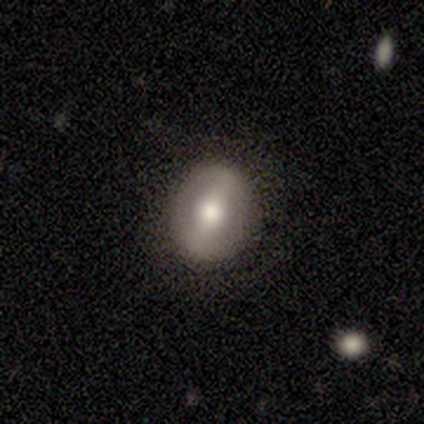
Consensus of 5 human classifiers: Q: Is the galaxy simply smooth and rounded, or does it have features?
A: smooth — 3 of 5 (60%).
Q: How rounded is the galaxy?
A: in between — 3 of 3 (100%).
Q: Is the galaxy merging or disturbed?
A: none — 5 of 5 (100%).